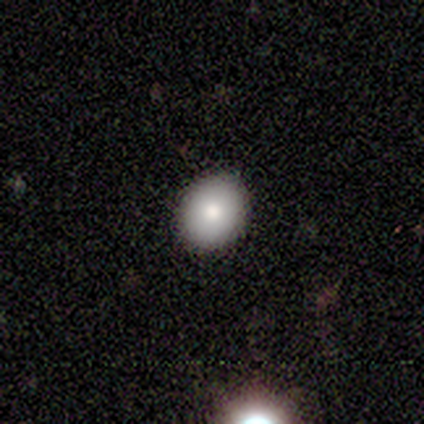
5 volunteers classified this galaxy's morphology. Q: Smooth or featured?
A: smooth (80%); runner-up: featured or disk (20%)
Q: How rounded?
A: round (75%); runner-up: in between (25%)
Q: Merging?
A: none (80%); runner-up: minor disturbance (20%)